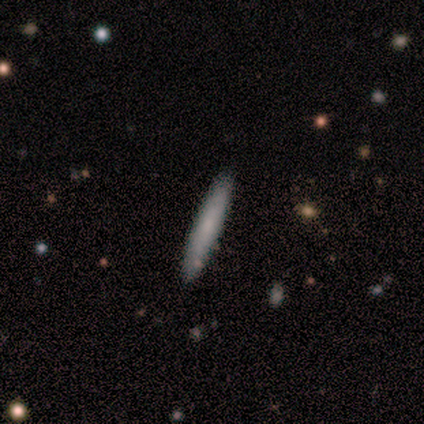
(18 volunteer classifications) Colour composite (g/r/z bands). It shows a smooth galaxy with no disk features (72%) that is cigar-shaped (100%). Merging: none (83%).